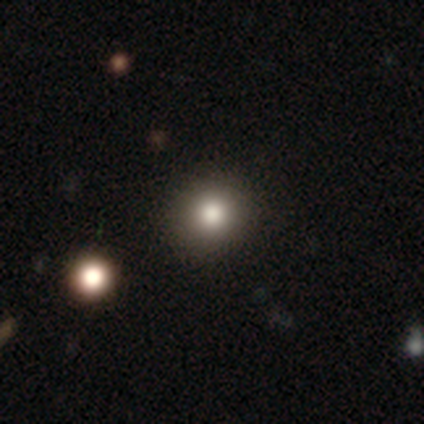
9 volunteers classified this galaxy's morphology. Smooth or featured? smooth (89%)
How rounded? round (100%)
Merging? none (88%)